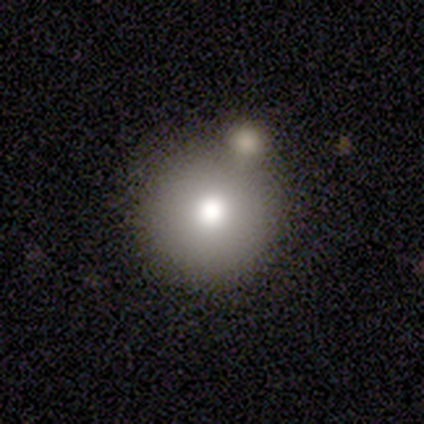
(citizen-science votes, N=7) This appears to be a smooth galaxy with no disk features (57%) that is round (75%). Merging: minor disturbance (75%).